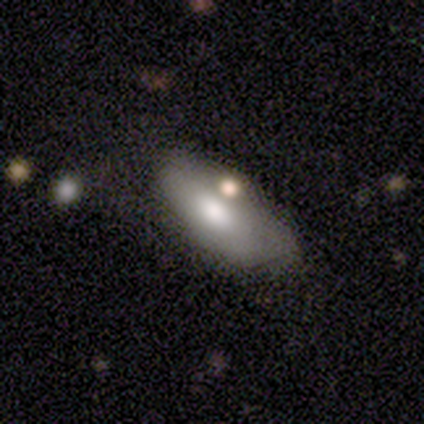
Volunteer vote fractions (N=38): smooth 58%, featured or disk 29%, star or artifact 13%. Down the decision tree: how rounded — in between (95%); merging — none (52%).